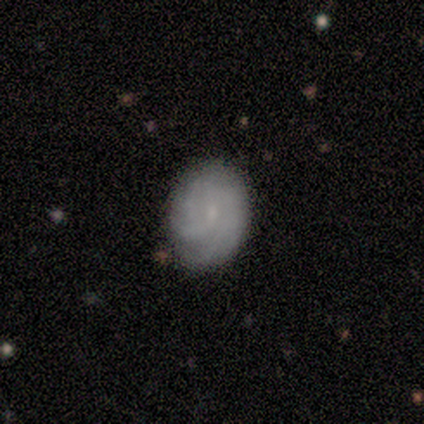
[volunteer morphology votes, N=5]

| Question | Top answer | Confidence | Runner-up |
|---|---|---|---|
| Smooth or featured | featured or disk | 80% | smooth (20%) |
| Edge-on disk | no | 100% | — |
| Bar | no | 100% | — |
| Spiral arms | yes | 100% | — |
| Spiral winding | tight | 50% | tied: medium (50%) |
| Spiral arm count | can't tell | 75% | 2 (25%) |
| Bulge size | small | 75% | none (25%) |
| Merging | none | 100% | — |